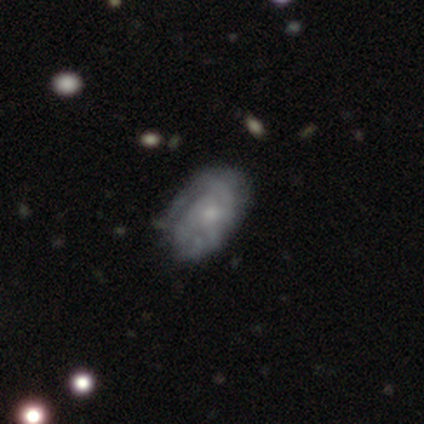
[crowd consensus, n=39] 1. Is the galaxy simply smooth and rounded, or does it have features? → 79% featured or disk, 21% smooth, 0% star or artifact.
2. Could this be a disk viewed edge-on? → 100% no, 0% yes.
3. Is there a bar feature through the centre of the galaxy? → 81% no, 19% weak, 0% strong.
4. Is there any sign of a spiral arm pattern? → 87% yes, 13% no.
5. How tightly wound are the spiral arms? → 59% tight, 37% medium, 4% loose.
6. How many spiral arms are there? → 52% can't tell, 19% 2, 19% 3, 11% 1, 0% 4, 0% more than 4.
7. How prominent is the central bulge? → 65% small, 32% moderate, 3% none, 0% dominant, 0% large.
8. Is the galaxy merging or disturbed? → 49% none, 15% minor disturbance, 3% major disturbance, 0% merger.